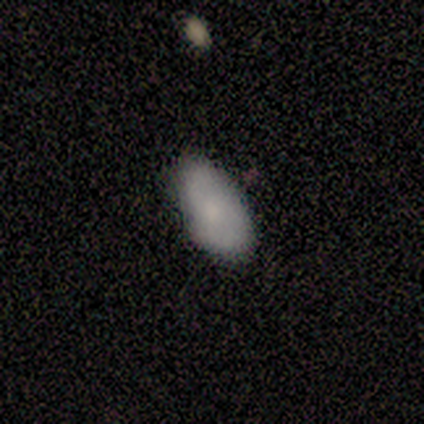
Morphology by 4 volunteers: smooth_or_featured: smooth (p=0.50) [alt: featured or disk p=0.25]
how_rounded: in between (p=1.00)
merging: minor disturbance (p=0.67) [alt: none p=0.33]